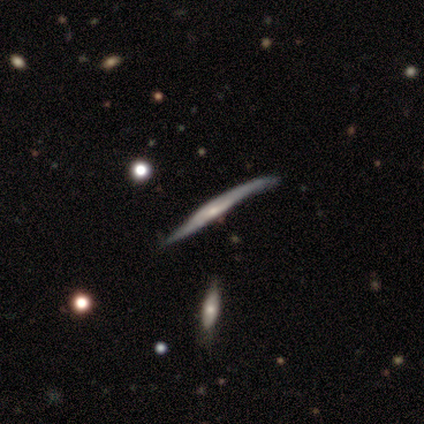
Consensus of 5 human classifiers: Smooth or featured?
  - featured or disk: 100% *
  - smooth: 0%
  - star or artifact: 0%
Edge-on disk?
  - yes: 100% *
  - no: 0%
Edge-on bulge?
  - rounded: 80% *
  - none: 20%
  - boxy: 0%
Merging?
  - none: 80% *
  - minor disturbance: 20%
  - major disturbance: 0%
  - merger: 0%